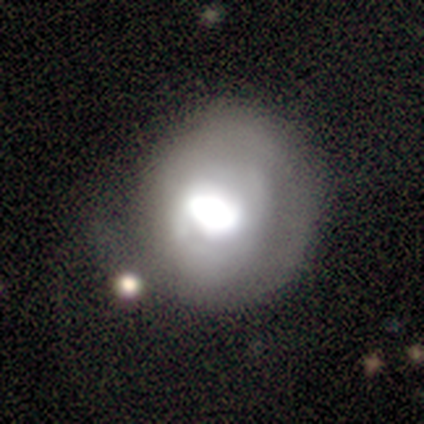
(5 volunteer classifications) Morphology: type=featured or disk (60%); edge-on=no (100%); bar=no (67%); spiral arms=no (100%); bulge=dominant (33%, tied with large and moderate); merging=minor disturbance (50%).